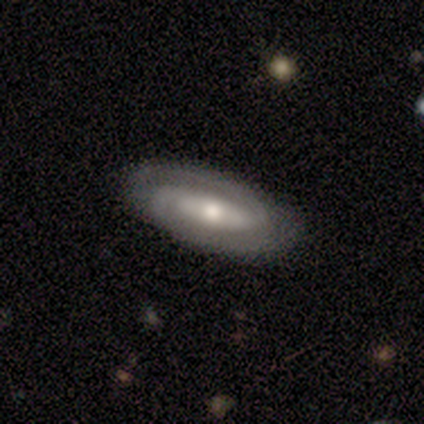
smooth_or_featured: featured or disk (p=0.86) [alt: star or artifact p=0.14]
disk_edge_on: no (p=0.83) [alt: yes p=0.17]
bar: no (p=0.60) [alt: strong p=0.40]
has_spiral_arms: yes (p=0.80) [alt: no p=0.20]
spiral_winding: tight (p=0.50) [tied with: medium p=0.50]
spiral_arm_count: 2 (p=1.00)
bulge_size: moderate (p=0.60) [alt: large p=0.20]
merging: none (p=0.67) [alt: minor disturbance p=0.17]